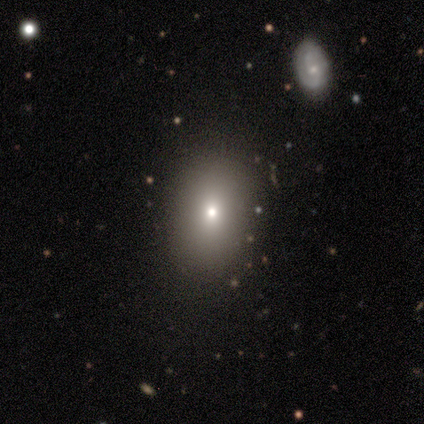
A smooth galaxy with no disk features (100%) that is in between round and cigar-shaped (80%). Merging: none (80%).